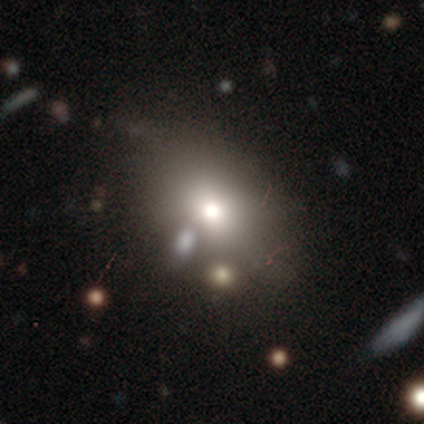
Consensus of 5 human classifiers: Volunteers were most divided on "smooth or featured" (2-way tie): smooth: 40%, star or artifact: 40%, featured or disk: 20%; "how rounded" (2-way tie): round: 50%, in between: 50%, cigar-shaped: 0%; "merging" (3-way tie): none: 33%, minor disturbance: 33%, merger: 33%, major disturbance: 0%.